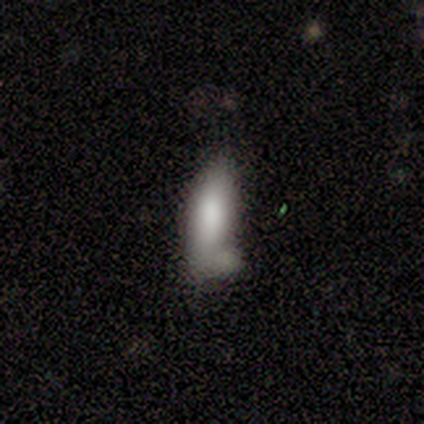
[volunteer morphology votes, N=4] Smooth or featured? smooth (100%)
How rounded? in between (100%)
Merging? none (100%)